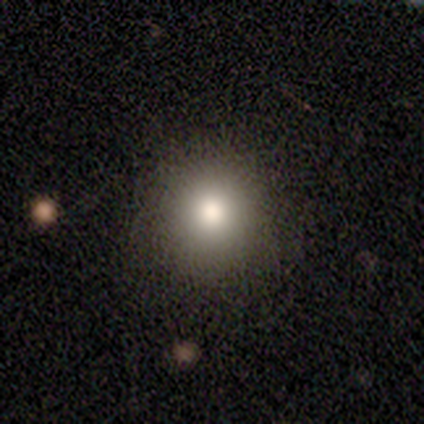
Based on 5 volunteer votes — Smooth or featured?
  - smooth: 100% *
  - featured or disk: 0%
  - star or artifact: 0%
How rounded?
  - round: 100% *
  - in between: 0%
  - cigar-shaped: 0%
Merging?
  - none: 60% *
  - minor disturbance: 20%
  - major disturbance: 20%
  - merger: 0%